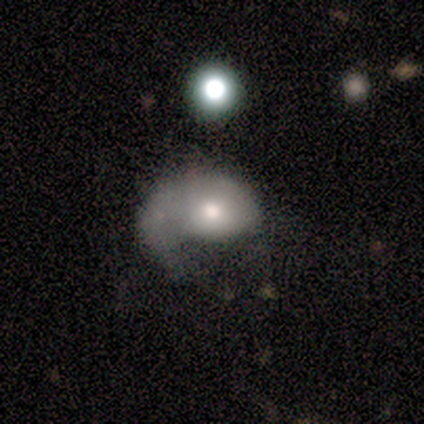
smooth-or-featured: smooth: 60% | featured or disk: 20% | star or artifact: 20%
  how-rounded: in between: 100% | round: 0% | cigar-shaped: 0%
  merging: major disturbance: 75% | minor disturbance: 25% | none: 0% | merger: 0%